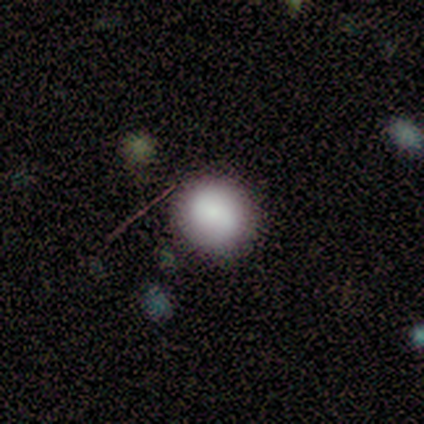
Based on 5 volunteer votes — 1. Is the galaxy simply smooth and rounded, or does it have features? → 100% smooth, 0% featured or disk, 0% star or artifact.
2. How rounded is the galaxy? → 80% round, 20% in between, 0% cigar-shaped.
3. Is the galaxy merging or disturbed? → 100% none, 0% minor disturbance, 0% major disturbance, 0% merger.